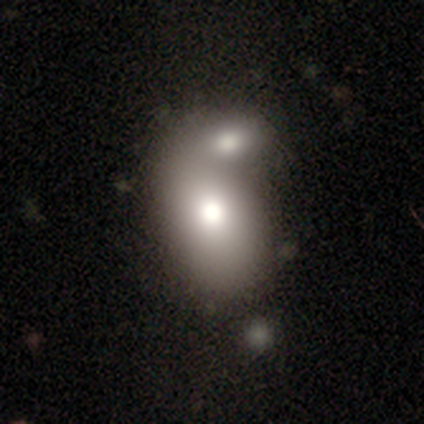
Overall: smooth (67%; featured or disk 33%). How rounded: in between (75%). Merging: merger (100%).